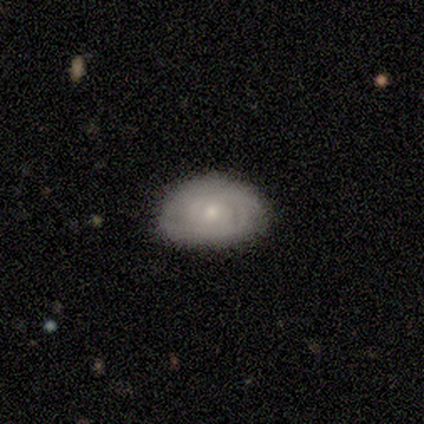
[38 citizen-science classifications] A featured or disk galaxy (68%) with no bar (88%), tight (80%) spiral arms (77%) and a small central bulge (81%).

Vote fractions:
- Smooth or featured? featured or disk: 68% / smooth: 29% / star or artifact: 3%
- Edge-on disk? no: 100% / yes: 0%
- Bar? no: 88% / weak: 12% / strong: 0%
- Spiral arms? yes: 77% / no: 23%
- Spiral winding? tight: 80% / medium: 20% / loose: 0%
- Spiral arm count? can't tell: 65% / 2: 20% / 4: 10% / 3: 5% / 1: 0% / more than 4: 0%
- Bulge size? small: 81% / moderate: 19% / dominant: 0% / large: 0% / none: 0%
- Merging? none: 76% / minor disturbance: 19% / major disturbance: 3% / merger: 3%